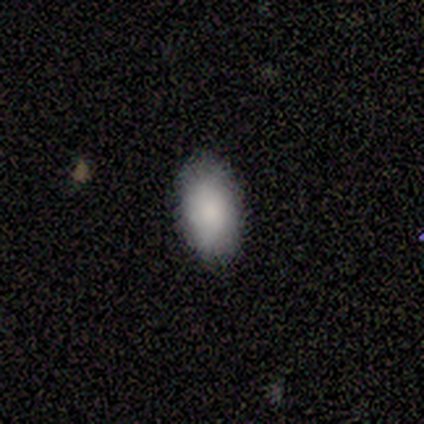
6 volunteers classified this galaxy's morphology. Smooth or featured? 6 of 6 (100%) said smooth. How rounded? 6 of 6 (100%) said in between. Merging? 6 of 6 (100%) said none.